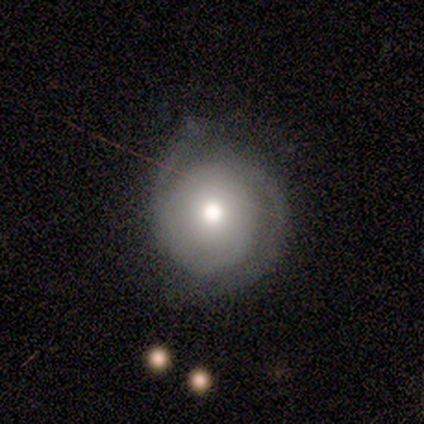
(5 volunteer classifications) This is likely a featured or disk galaxy (60%). It is clearly not viewed edge-on (100%). Bar: clearly no (100%). Spiral arm pattern: clearly yes (100%). Spiral arm count: marginally 2 (33%, tied with 3 and can't tell). Spiral winding: clearly tight (100%). Central bulge: clearly moderate (100%). Merging: clearly none (100%).